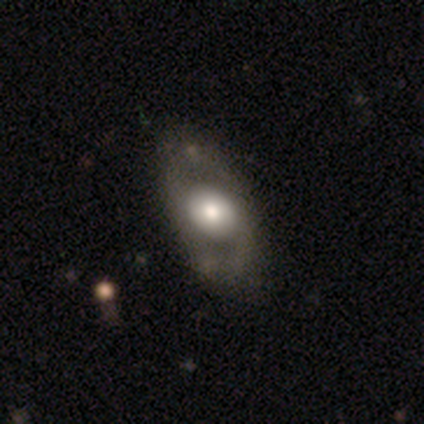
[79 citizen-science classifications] Smooth or featured? 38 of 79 (48%, tied with featured or disk) said smooth. How rounded? 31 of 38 (82%) said in between. Merging? 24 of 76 (32%) said none.